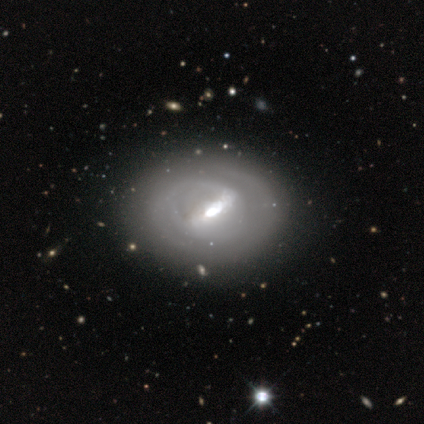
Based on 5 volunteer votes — This appears to be a smooth galaxy with no disk features (40%, tied with featured or disk) that is round (100%). Merging: none (100%).